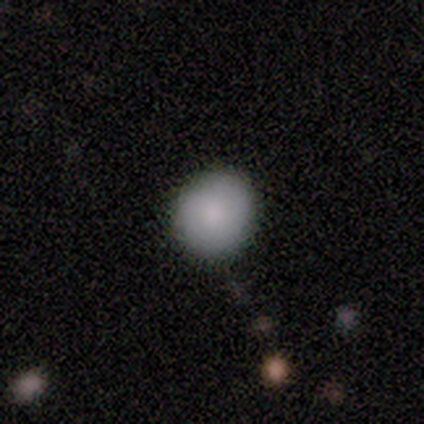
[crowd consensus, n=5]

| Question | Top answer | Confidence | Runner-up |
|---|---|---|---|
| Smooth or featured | smooth | 60% | featured or disk (40%) |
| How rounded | round | 100% | — |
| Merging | none | 100% | — |